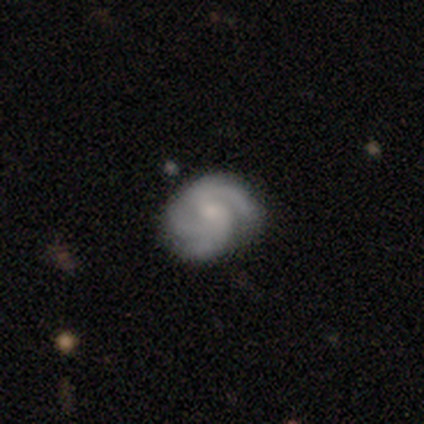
Smooth or featured: featured or disk — 89% (smooth — 8%)
Edge-on disk: no — 100%
Bar: no — 59% (weak — 38%)
Spiral arms: yes — 97% (no — 3%)
Spiral winding: tight — 52% (medium — 36%)
Spiral arm count: 3 — 55% (2 — 27%)
Bulge size: small — 44% (moderate — 32%)
Merging: none — 49% (minor disturbance — 24%)